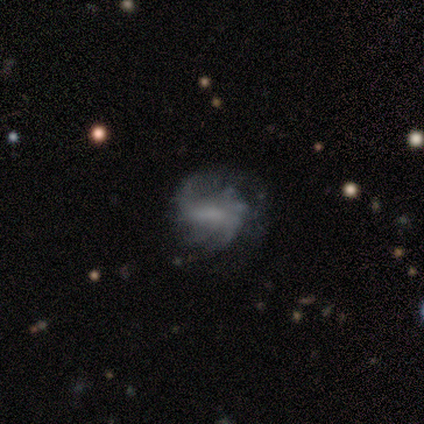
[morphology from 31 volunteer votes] This is likely a featured or disk galaxy (74%). It is clearly not viewed edge-on (100%). Bar: marginally weak (43%). Spiral arm pattern: likely yes (74%). Spiral arm count: marginally 2 (35%). Spiral winding: possibly medium (53%). Central bulge: marginally none (43%). Merging: marginally none (44%).